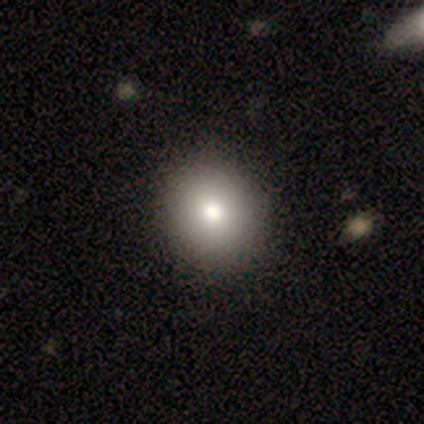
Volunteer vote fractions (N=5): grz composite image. It shows a smooth galaxy with no disk features (40%, tied with featured or disk) that is round (50%, tied with in between). Merging: none (75%).